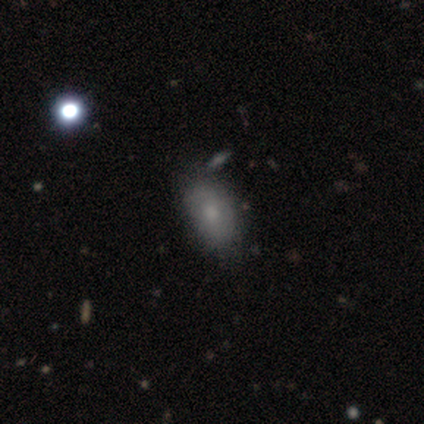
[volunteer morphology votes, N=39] Q: Smooth or featured?
A: smooth (62%); runner-up: featured or disk (26%)
Q: How rounded?
A: in between (83%); runner-up: round (17%)
Q: Merging?
A: none (82%); runner-up: major disturbance (9%)